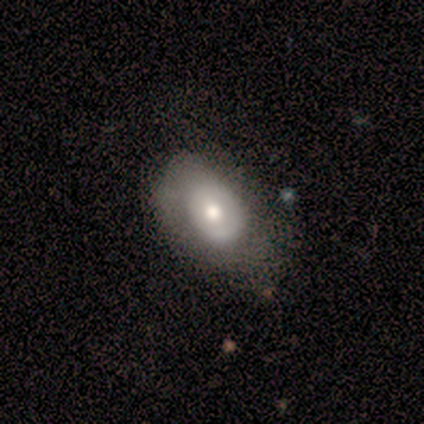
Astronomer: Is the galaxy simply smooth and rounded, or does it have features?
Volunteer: smooth — 56% (runner-up: featured or disk, 44%).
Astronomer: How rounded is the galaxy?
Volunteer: in between — 100%.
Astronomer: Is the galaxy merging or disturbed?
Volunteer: none — 44%, tied with minor disturbance at 44%.